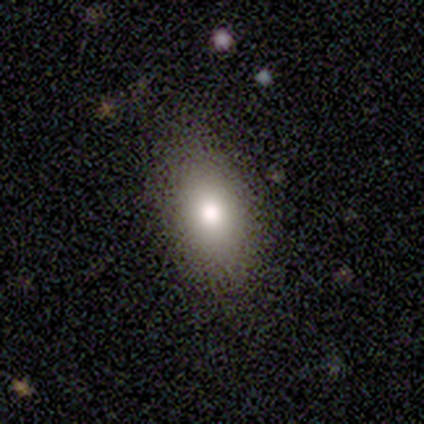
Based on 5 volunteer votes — This appears to be a smooth galaxy with no disk features (100%) that is in between round and cigar-shaped (100%). Merging: none (80%).